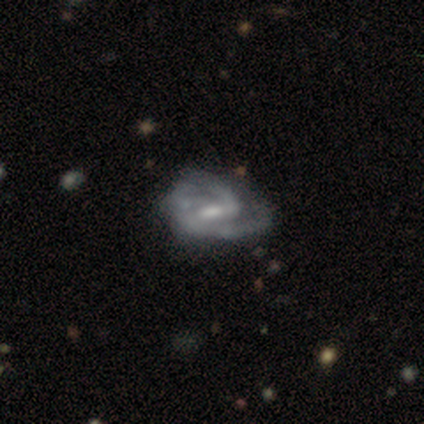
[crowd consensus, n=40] Smooth or featured?
  - featured or disk: 88% *
  - smooth: 8%
  - star or artifact: 5%
Edge-on disk?
  - no: 97% *
  - yes: 3%
Bar?
  - weak: 53% *
  - strong: 35%
  - no: 12%
Spiral arms?
  - yes: 91% *
  - no: 9%
Spiral winding?
  - medium: 61% *
  - tight: 26%
  - loose: 13%
Spiral arm count?
  - 2: 68% *
  - 3: 16%
  - can't tell: 13%
  - 1: 3%
  - 4: 0%
  - more than 4: 0%
Bulge size?
  - moderate: 44% *
  - small: 38%
  - none: 15%
  - large: 3%
  - dominant: 0%
Merging?
  - minor disturbance: 34% *
  - none: 26%
  - major disturbance: 13%
  - merger: 0%